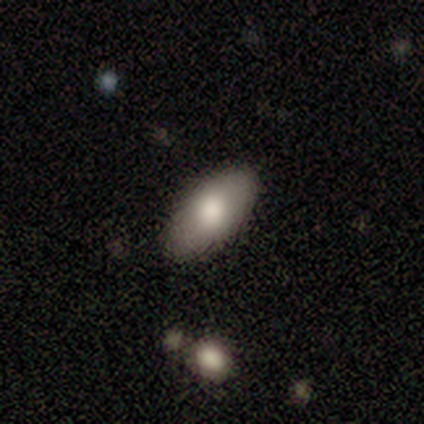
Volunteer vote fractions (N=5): smooth 100%, featured or disk 0%, star or artifact 0%. Down the decision tree: how rounded — in between (100%); merging — none (40%, tied with minor disturbance).